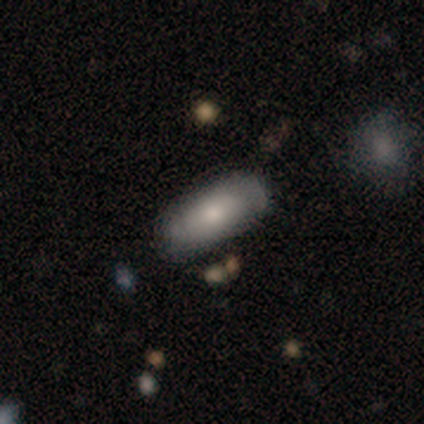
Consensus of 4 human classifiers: Q: Smooth or featured?
A: smooth (75%); runner-up: featured or disk (25%)
Q: How rounded?
A: in between (100%)
Q: Merging?
A: none (100%)